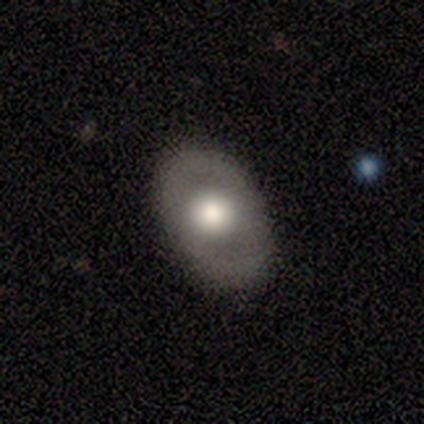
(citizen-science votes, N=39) smooth-or-featured: smooth: 54% | featured or disk: 36% | star or artifact: 10%
  how-rounded: in between: 86% | round: 14% | cigar-shaped: 0%
  merging: none: 86% | minor disturbance: 9% | major disturbance: 3% | merger: 3%